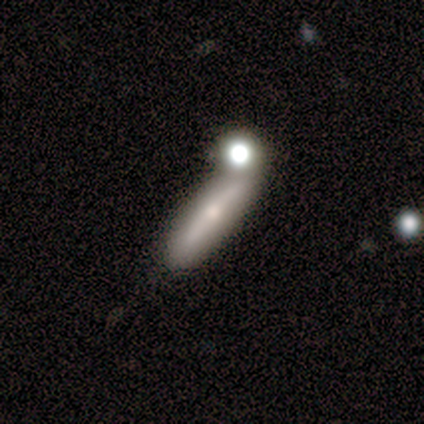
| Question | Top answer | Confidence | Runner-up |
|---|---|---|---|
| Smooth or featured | smooth | 50% | tied: featured or disk (50%) |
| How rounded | in between | 50% | tied: cigar-shaped (50%) |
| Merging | none | 58% | minor disturbance (33%) |